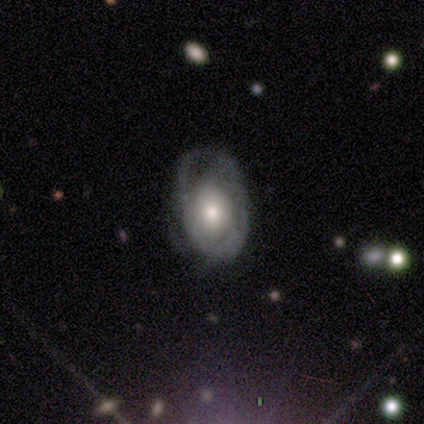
Volunteers were most divided on "spiral arms" (2-way tie): yes: 50%, no: 50%; "spiral winding" (2-way tie): tight: 50%, medium: 50%, loose: 0%; "spiral arm count" (2-way tie): 2: 50%, can't tell: 50%, 1: 0%, 3: 0%, 4: 0%, more than 4: 0%. More confident: edge-on disk — no (100%); bar — no (100%); smooth or featured — featured or disk (80%); bulge size — moderate (75%); merging — minor disturbance (60%).